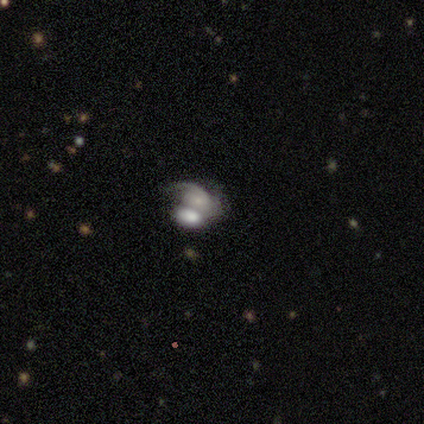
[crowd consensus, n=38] Volunteers were most divided on "spiral winding": medium: 53%, tight: 29%, loose: 18%. More confident: edge-on disk — no (92%); bar — no (86%); merging — merger (81%); spiral arms — yes (77%); smooth or featured — featured or disk (63%); bulge size — small (55%); spiral arm count — 1 (53%).